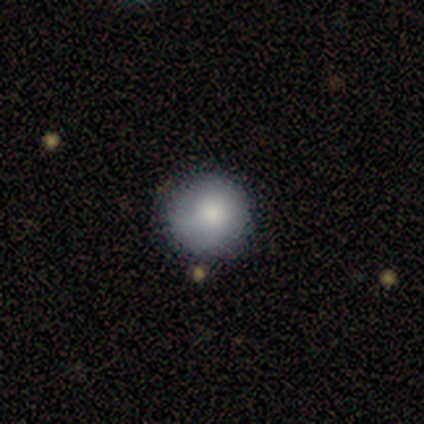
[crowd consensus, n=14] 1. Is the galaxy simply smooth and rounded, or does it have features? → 86% smooth, 14% featured or disk, 0% star or artifact.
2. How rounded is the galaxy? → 100% round, 0% in between, 0% cigar-shaped.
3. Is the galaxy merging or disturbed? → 79% none, 21% minor disturbance, 0% major disturbance, 0% merger.